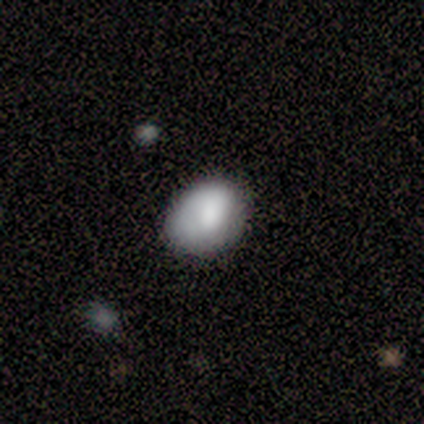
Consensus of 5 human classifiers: Volunteers were most divided on "smooth or featured": smooth: 60%, featured or disk: 40%, star or artifact: 0%. More confident: how rounded — in between (100%); merging — none (60%).